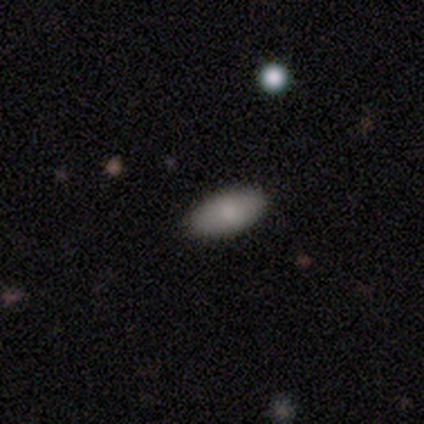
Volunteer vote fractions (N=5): Smooth or featured?
  - smooth: 100% *
  - featured or disk: 0%
  - star or artifact: 0%
How rounded?
  - in between: 80% *
  - cigar-shaped: 20%
  - round: 0%
Merging?
  - none: 80% *
  - minor disturbance: 20%
  - major disturbance: 0%
  - merger: 0%